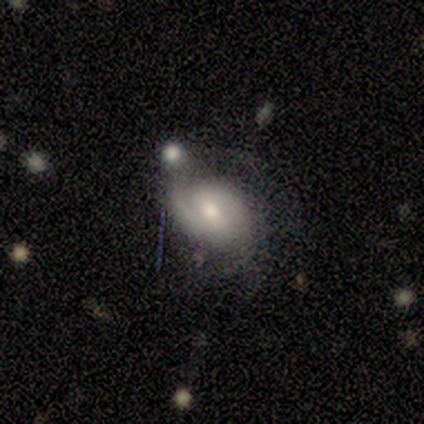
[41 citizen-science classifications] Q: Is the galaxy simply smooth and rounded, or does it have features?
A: featured or disk — 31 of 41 (76%).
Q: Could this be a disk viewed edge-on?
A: no — 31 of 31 (100%).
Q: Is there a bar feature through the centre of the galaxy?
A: weak — 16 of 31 (52%).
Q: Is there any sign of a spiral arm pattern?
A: yes — 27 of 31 (87%).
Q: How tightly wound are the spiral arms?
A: medium — 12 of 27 (44%).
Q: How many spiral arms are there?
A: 2 — 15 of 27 (56%).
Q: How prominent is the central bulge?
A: moderate — 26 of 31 (84%).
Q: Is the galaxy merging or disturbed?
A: none — 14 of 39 (36%).